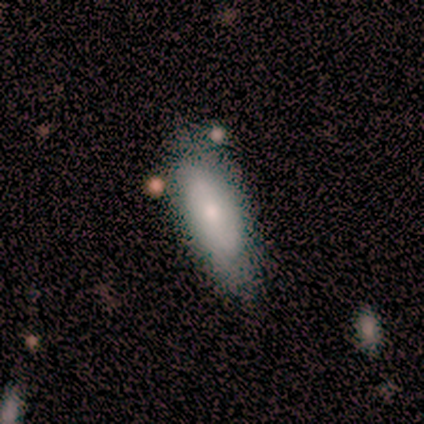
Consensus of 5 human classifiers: smooth_or_featured: smooth (p=0.80) [alt: featured or disk p=0.20]
how_rounded: in between (p=0.75) [alt: cigar-shaped p=0.25]
merging: none (p=0.40) [tied with: minor disturbance p=0.40]